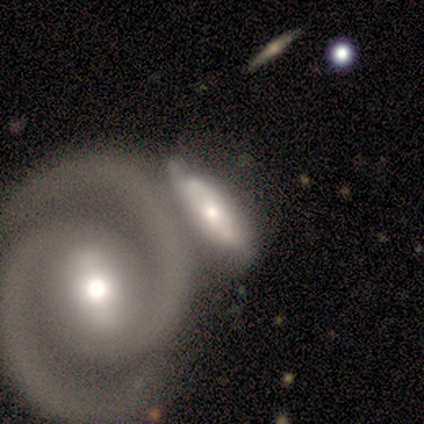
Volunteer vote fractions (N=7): smooth_or_featured: featured or disk (p=0.86) [alt: smooth p=0.14]
disk_edge_on: no (p=0.67) [alt: yes p=0.33]
bar: weak (p=0.50) [tied with: no p=0.50]
has_spiral_arms: yes (p=1.00)
spiral_winding: tight (p=0.75) [alt: medium p=0.25]
spiral_arm_count: 2 (p=0.50) [tied with: can't tell p=0.50]
bulge_size: moderate (p=0.50) [tied with: small p=0.50]
merging: none (p=0.29) [tied with: minor disturbance p=0.29, merger p=0.29]